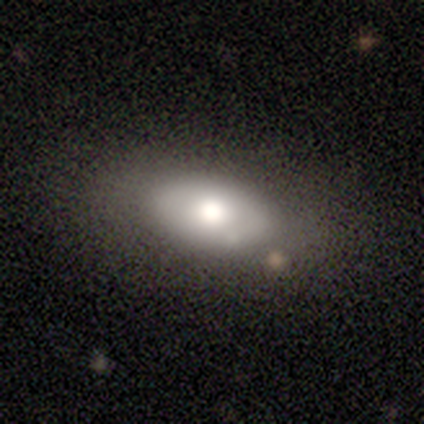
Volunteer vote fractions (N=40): This appears to be a smooth galaxy with no disk features (57%) that is in between round and cigar-shaped (96%). Merging: none (71%).